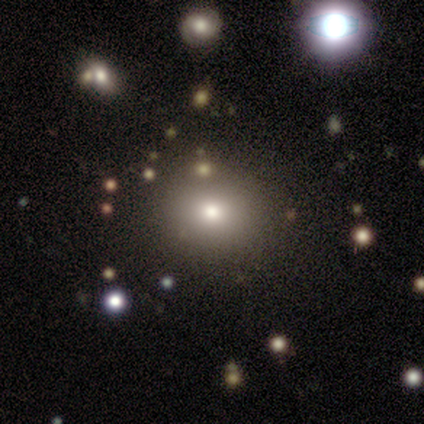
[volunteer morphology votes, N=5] Smooth or featured? 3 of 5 (60%) said smooth. How rounded? 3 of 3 (100%) said round. Merging? 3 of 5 (60%) said none.